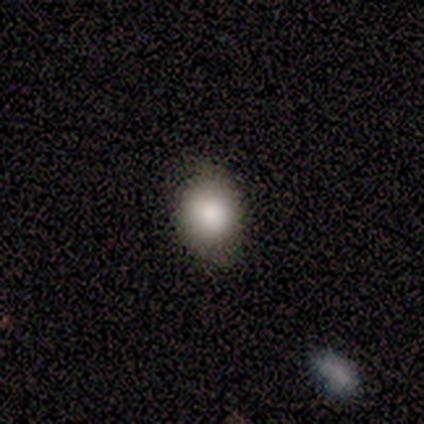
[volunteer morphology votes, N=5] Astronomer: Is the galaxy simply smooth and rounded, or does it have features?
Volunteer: smooth — 60% (runner-up: featured or disk, 40%).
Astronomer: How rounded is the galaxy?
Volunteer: in between — 67%.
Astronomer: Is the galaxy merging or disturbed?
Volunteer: none — 80%.